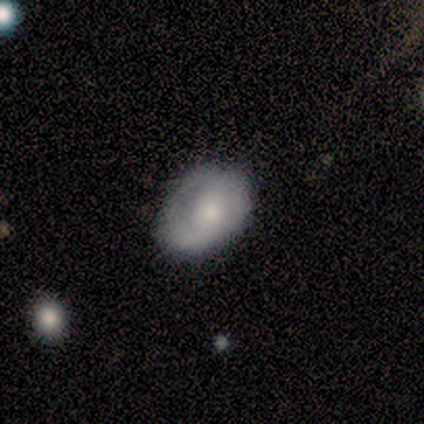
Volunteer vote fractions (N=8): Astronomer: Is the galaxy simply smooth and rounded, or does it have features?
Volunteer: featured or disk — 62%.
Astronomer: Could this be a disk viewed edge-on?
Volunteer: no — 100%.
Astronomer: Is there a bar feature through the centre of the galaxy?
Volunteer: no — 100%.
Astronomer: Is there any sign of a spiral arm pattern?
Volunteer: no — 60% (runner-up: yes, 40%).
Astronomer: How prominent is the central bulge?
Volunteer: small — 80%.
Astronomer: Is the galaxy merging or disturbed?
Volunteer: none — 50%, tied with minor disturbance at 50%.